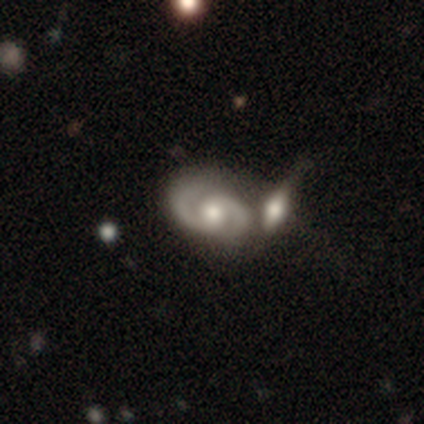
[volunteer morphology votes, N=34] featured or disk 88%, smooth 9%, star or artifact 3%. Down the decision tree: edge-on disk — no (100%); bar — no (63%); spiral arms — yes (97%); spiral arm count — 2 (93%); spiral winding — medium (59%); bulge size — moderate (80%); merging — merger (55%).